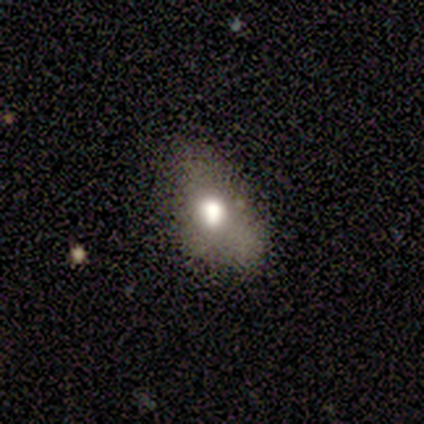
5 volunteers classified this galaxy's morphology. Smooth or featured? 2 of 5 (40%, tied with featured or disk) said smooth. How rounded? 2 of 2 (100%) said in between. Merging? 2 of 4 (50%, tied with major disturbance) said minor disturbance.